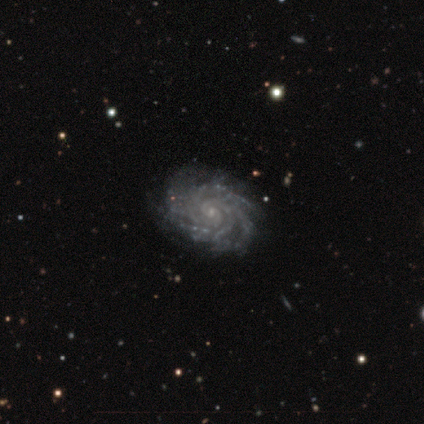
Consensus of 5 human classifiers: Smooth or featured?
  - featured or disk: 100% *
  - smooth: 0%
  - star or artifact: 0%
Edge-on disk?
  - no: 100% *
  - yes: 0%
Bar?
  - no: 60% *
  - strong: 20%
  - weak: 20%
Spiral arms?
  - yes: 100% *
  - no: 0%
Spiral winding?
  - tight: 100% *
  - medium: 0%
  - loose: 0%
Spiral arm count?
  - more than 4: 40% * (tied)
  - can't tell: 40% * (tied)
  - 4: 20%
  - 1: 0%
  - 2: 0%
  - 3: 0%
Bulge size?
  - small: 80% *
  - moderate: 20%
  - dominant: 0%
  - large: 0%
  - none: 0%
Merging?
  - none: 80% *
  - major disturbance: 20%
  - minor disturbance: 0%
  - merger: 0%